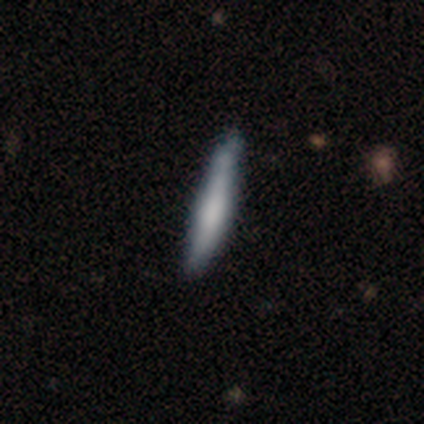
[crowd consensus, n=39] Overall: smooth (72%). How rounded: cigar-shaped (89%). Merging: none (80%).